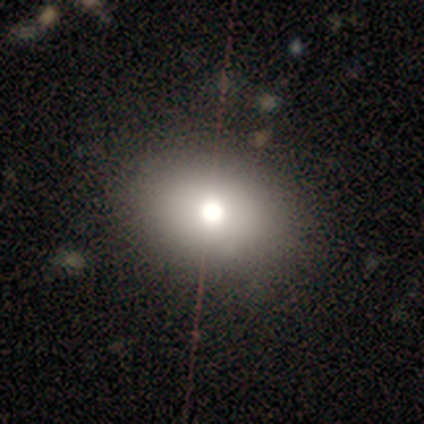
Morphology: type=smooth (60%); roundness=in between (67%); merging=none (67%).